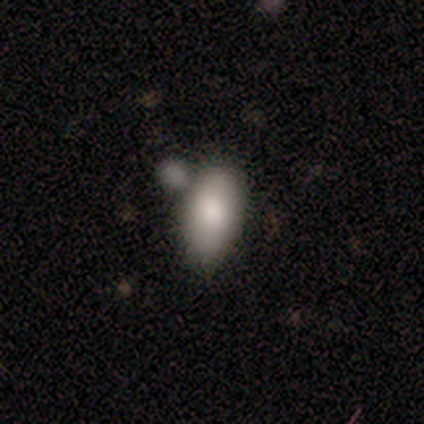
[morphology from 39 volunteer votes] Volunteers were most divided on "merging": none: 49%, merger: 38%, minor disturbance: 10%, major disturbance: 3%. More confident: how rounded — in between (97%); smooth or featured — smooth (82%).